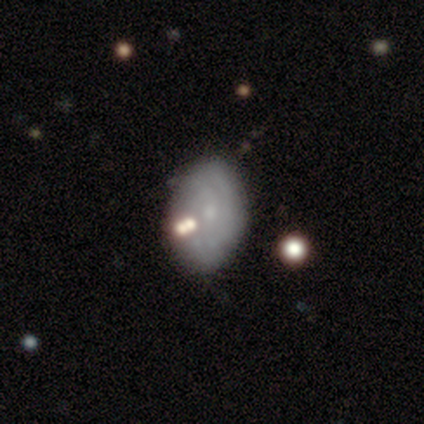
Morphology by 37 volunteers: smooth_or_featured: featured or disk (p=0.68) [alt: smooth p=0.30]
disk_edge_on: no (p=0.96) [alt: yes p=0.04]
bar: no (p=0.88) [alt: weak p=0.12]
has_spiral_arms: yes (p=0.75) [alt: no p=0.25]
spiral_winding: tight (p=0.50) [tied with: medium p=0.50]
spiral_arm_count: can't tell (p=0.61) [alt: 2 p=0.33]
bulge_size: small (p=0.83) [alt: moderate p=0.12]
merging: none (p=0.75) [alt: merger p=0.11]